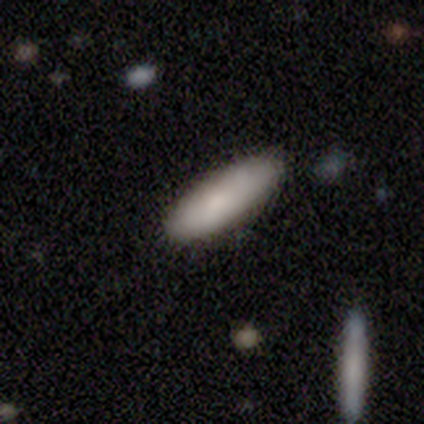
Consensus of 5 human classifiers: Morphology: type=smooth (60%); roundness=cigar-shaped (67%); merging=none (100%).